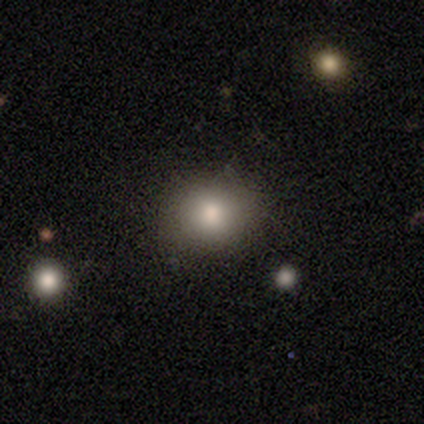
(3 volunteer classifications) smooth-or-featured: smooth: 100% | featured or disk: 0% | star or artifact: 0%
  how-rounded: round: 67% | in between: 33% | cigar-shaped: 0%
  merging: none: 100% | minor disturbance: 0% | major disturbance: 0% | merger: 0%